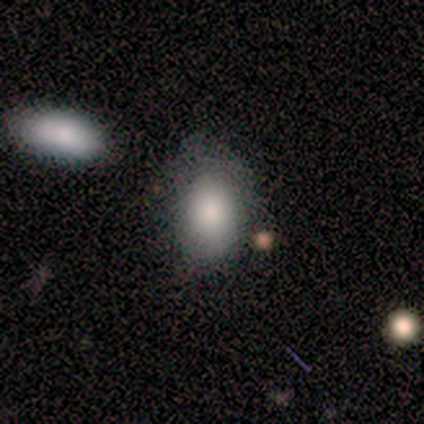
A smooth galaxy with no disk features (80%) that is in between round and cigar-shaped (75%).

Vote fractions:
- Smooth or featured? smooth: 80% / featured or disk: 20% / star or artifact: 0%
- How rounded? in between: 75% / round: 25% / cigar-shaped: 0%
- Merging? minor disturbance: 60% / none: 20% / merger: 20% / major disturbance: 0%